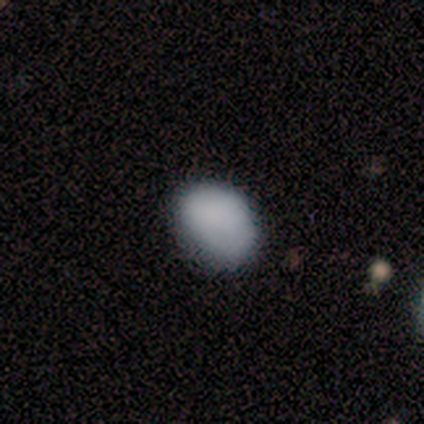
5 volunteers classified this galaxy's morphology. smooth_or_featured: smooth (p=0.80) [alt: star or artifact p=0.20]
how_rounded: in between (p=1.00)
merging: none (p=1.00)